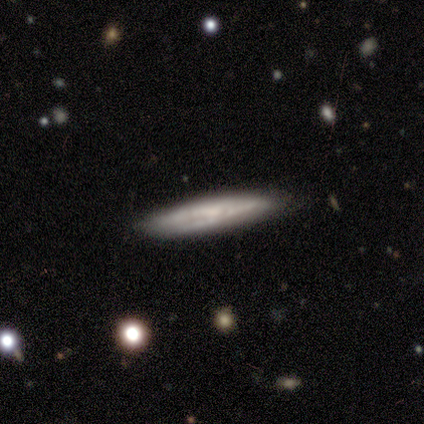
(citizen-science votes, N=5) smooth-or-featured: featured or disk: 80% | smooth: 20% | star or artifact: 0%
  disk-edge-on: yes: 100% | no: 0%
    edge-on-bulge: none: 75% | rounded: 25% | boxy: 0%
  merging: none: 100% | minor disturbance: 0% | major disturbance: 0% | merger: 0%